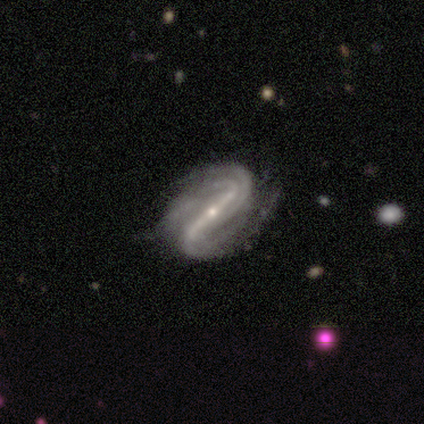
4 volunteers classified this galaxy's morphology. This appears to be a featured or disk galaxy (75%) with a strong bar (100%), 2 (33%, tied with 4 and more than 4) tight (67%) spiral arms (100%) and a small central bulge (100%). Merging: minor disturbance (67%).